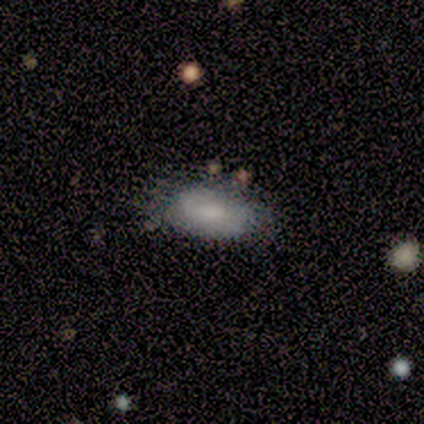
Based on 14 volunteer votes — Smooth or featured?
  - smooth: 64% *
  - featured or disk: 29%
  - star or artifact: 7%
How rounded?
  - in between: 89% *
  - cigar-shaped: 11%
  - round: 0%
Merging?
  - none: 85% *
  - minor disturbance: 15%
  - major disturbance: 0%
  - merger: 0%